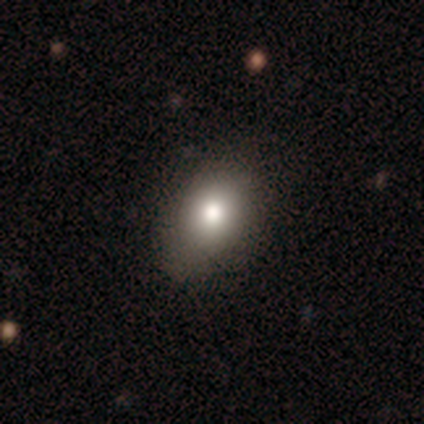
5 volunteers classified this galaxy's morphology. A smooth galaxy with no disk features (100%) that is in between round and cigar-shaped (60%). Merging: none (60%).